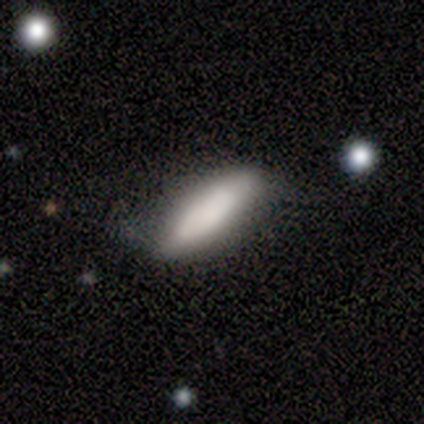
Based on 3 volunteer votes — smooth_or_featured: smooth (p=1.00)
how_rounded: in between (p=0.67) [alt: cigar-shaped p=0.33]
merging: minor disturbance (p=0.67) [alt: merger p=0.33]